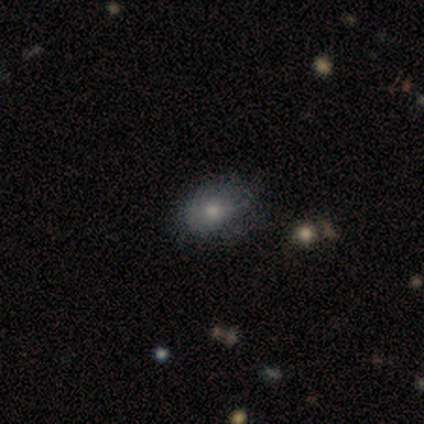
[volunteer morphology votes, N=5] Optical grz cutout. It shows a smooth galaxy with no disk features (60%) that is in between round and cigar-shaped (100%). Merging: none (50%, tied with merger).